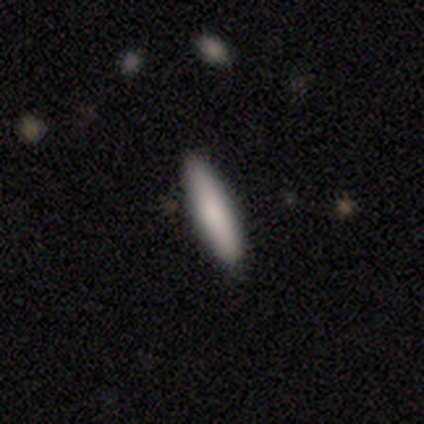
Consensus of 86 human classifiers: Morphology: type=smooth (85%); roundness=cigar-shaped (84%); merging=none (88%).